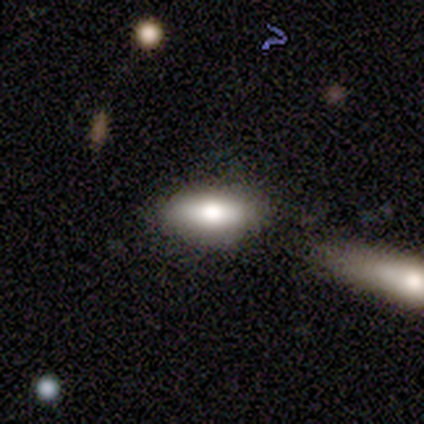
This appears to be a smooth galaxy with no disk features (60%) that is in between round and cigar-shaped (100%). Merging: merger (67%).